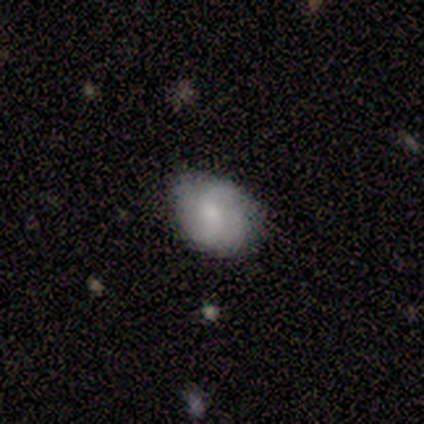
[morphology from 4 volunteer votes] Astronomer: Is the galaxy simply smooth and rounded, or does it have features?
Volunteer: smooth — 50%.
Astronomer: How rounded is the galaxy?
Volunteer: round — 100%.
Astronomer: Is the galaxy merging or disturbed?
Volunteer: none — 100%.